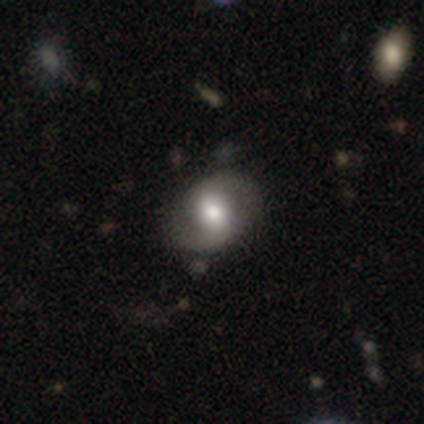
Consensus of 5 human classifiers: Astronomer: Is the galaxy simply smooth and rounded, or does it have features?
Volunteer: featured or disk — 100%.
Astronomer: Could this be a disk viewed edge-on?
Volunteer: no — 100%.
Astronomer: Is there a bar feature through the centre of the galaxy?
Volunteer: strong — 40%, tied with weak at 40%.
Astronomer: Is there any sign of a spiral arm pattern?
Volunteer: yes — 100%.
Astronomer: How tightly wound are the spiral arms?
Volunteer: medium — 60%.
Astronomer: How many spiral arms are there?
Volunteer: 2 — 80%.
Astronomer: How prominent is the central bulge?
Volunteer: moderate — 60%.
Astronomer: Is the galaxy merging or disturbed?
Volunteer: none — 80%.